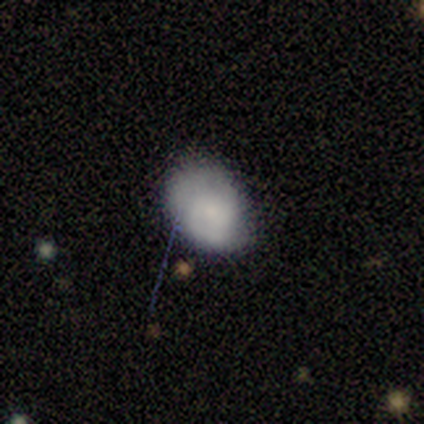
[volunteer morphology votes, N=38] Smooth or featured? 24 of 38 (63%) said smooth. How rounded? 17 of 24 (71%) said in between. Merging? 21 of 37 (57%) said none.